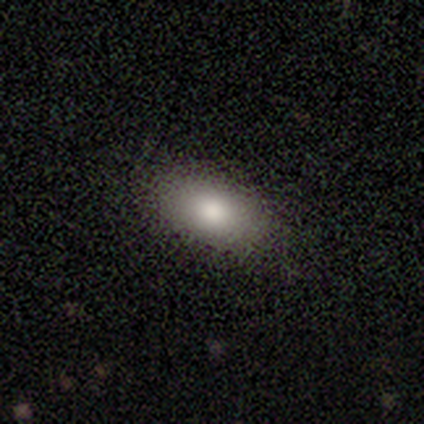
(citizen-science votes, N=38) smooth-or-featured: smooth: 61% | featured or disk: 21% | star or artifact: 18%
  how-rounded: in between: 91% | round: 4% | cigar-shaped: 4%
  merging: none: 90% | minor disturbance: 10% | major disturbance: 0% | merger: 0%